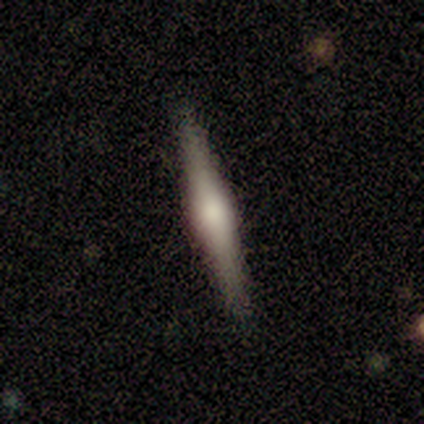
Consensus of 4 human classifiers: smooth-or-featured: featured or disk: 100% | smooth: 0% | star or artifact: 0%
  disk-edge-on: yes: 100% | no: 0%
    edge-on-bulge: boxy: 50% (tied) | rounded: 50% (tied) | none: 0%
  merging: none: 100% | minor disturbance: 0% | major disturbance: 0% | merger: 0%